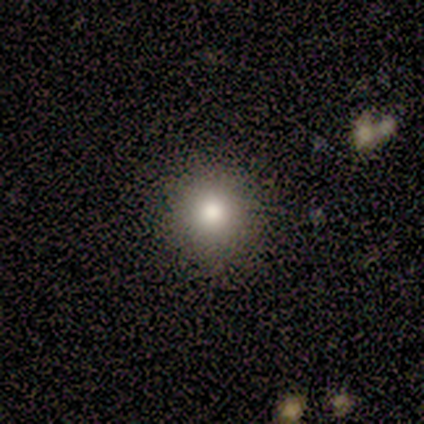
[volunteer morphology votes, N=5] Consensus on every question: smooth or featured — smooth (100%); how rounded — round (100%); merging — none (100%).